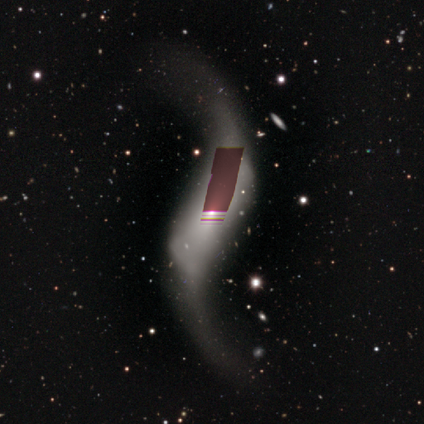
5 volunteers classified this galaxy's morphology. Smooth or featured? 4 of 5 (80%) said featured or disk. Edge-on disk? 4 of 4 (100%) said no. Bar? 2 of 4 (50%) said no. Spiral arms? 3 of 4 (75%) said yes. Spiral winding? 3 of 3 (100%) said loose. Spiral arm count? 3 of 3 (100%) said 2. Bulge size? 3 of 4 (75%) said small. Merging? 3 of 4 (75%) said none.